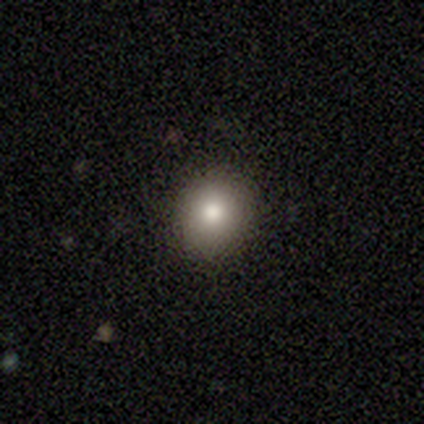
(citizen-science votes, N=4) Smooth or featured: smooth — 100%
How rounded: round — 100%
Merging: none — 100%